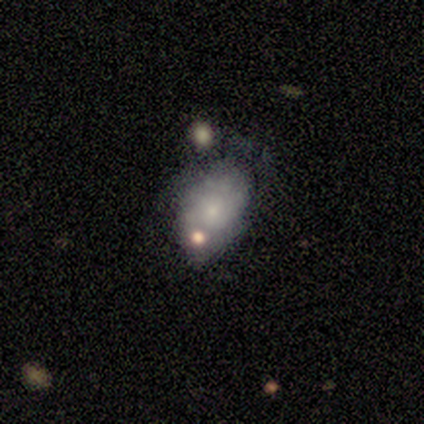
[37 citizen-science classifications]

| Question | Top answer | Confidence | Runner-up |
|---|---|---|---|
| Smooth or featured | smooth | 46% | featured or disk (41%) |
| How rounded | in between | 88% | round (6%) |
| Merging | none | 41% | minor disturbance (31%) |